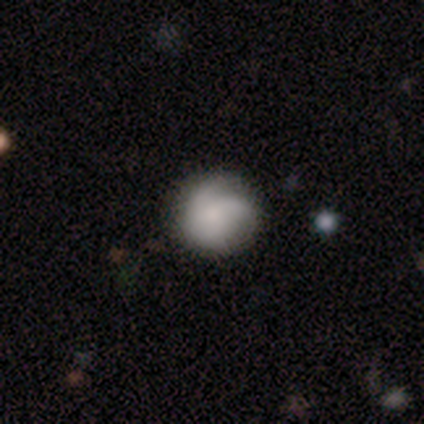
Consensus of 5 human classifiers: smooth_or_featured: star or artifact (p=0.60) [alt: smooth p=0.20]